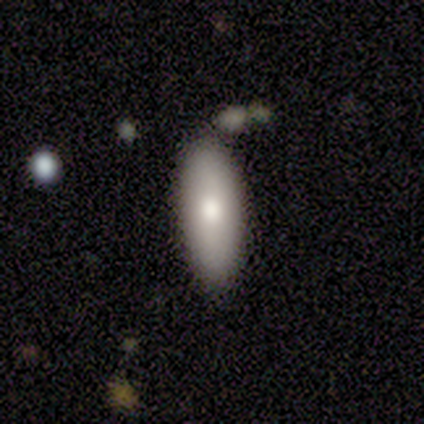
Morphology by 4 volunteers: Smooth or featured? 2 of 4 (50%, tied with featured or disk) said smooth. How rounded? 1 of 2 (50%, tied with cigar-shaped) said in between. Merging? 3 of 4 (75%) said none.